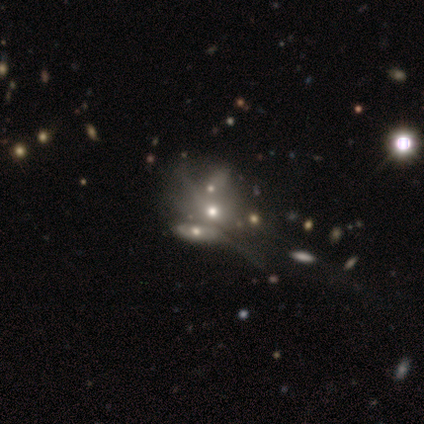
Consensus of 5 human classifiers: Overall: smooth (60%; featured or disk 20%). How rounded: round (67%; in between 33%). Merging: merger (100%).